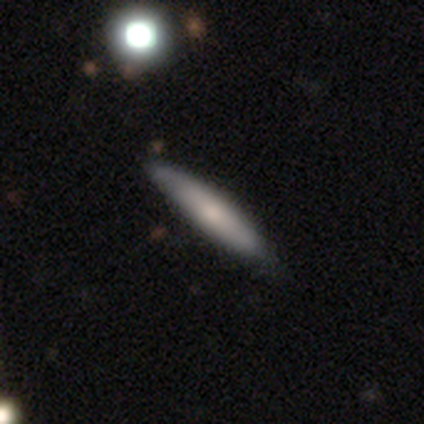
Q: Smooth or featured?
A: featured or disk (60%); runner-up: smooth (40%)
Q: Edge-on disk?
A: no (67%); runner-up: yes (33%)
Q: Bar?
A: no (100%)
Q: Spiral arms?
A: yes (50%); tied with: no (50%)
Q: Spiral winding?
A: loose (100%)
Q: Spiral arm count?
A: 2 (100%)
Q: Bulge size?
A: moderate (100%)
Q: Merging?
A: none (100%)